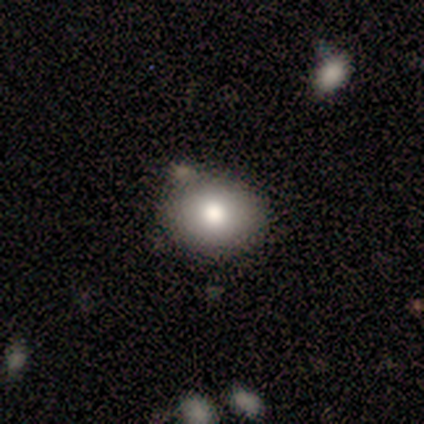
Morphology: type=smooth (100%); roundness=round (60%); merging=none (80%).